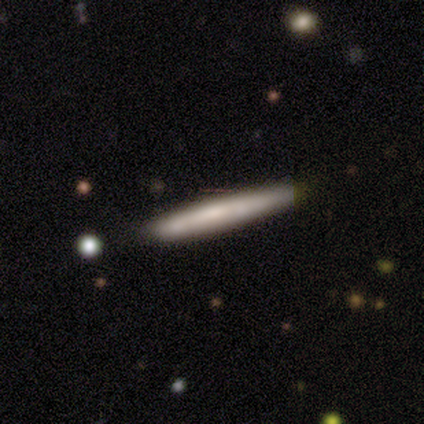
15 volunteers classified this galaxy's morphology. smooth_or_featured: smooth (p=0.73) [alt: featured or disk p=0.27]
how_rounded: cigar-shaped (p=1.00)
merging: none (p=0.87) [alt: minor disturbance p=0.13]